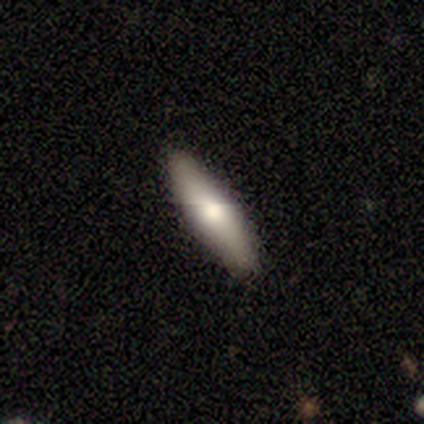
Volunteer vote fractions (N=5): featured or disk 60%, smooth 40%, star or artifact 0%. Down the decision tree: edge-on disk — yes (100%); edge-on bulge — rounded (100%); merging — none (80%).